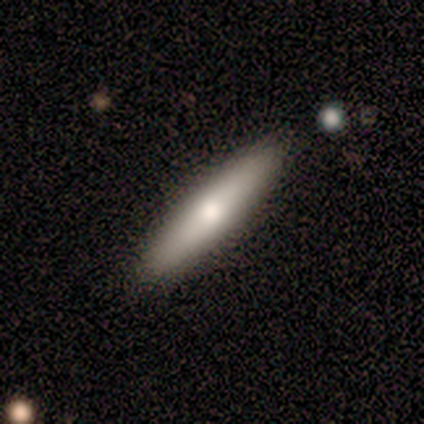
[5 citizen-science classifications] smooth 80%, featured or disk 20%, star or artifact 0%. Down the decision tree: how rounded — cigar-shaped (75%); merging — none (100%).